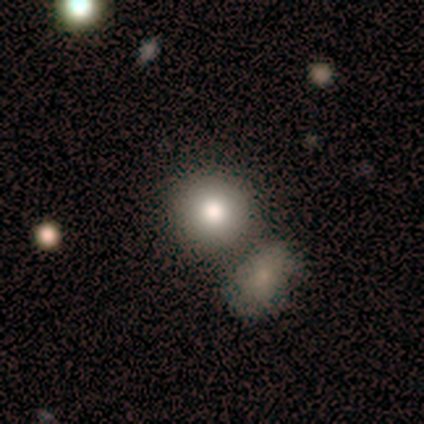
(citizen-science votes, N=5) Smooth or featured: smooth — 40% (tied with featured or disk — 40%)
How rounded: round — 100%
Merging: none — 75% (minor disturbance — 25%)